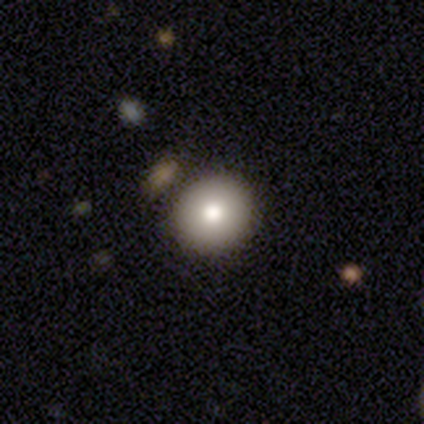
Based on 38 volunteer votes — Overall: smooth (82%). How rounded: round (90%). Merging: none (83%).